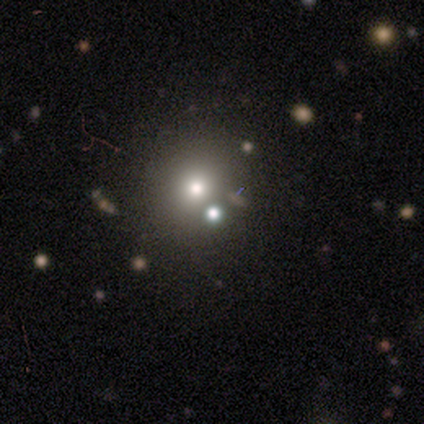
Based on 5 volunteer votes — smooth_or_featured: smooth (p=0.80) [alt: star or artifact p=0.20]
how_rounded: round (p=1.00)
merging: none (p=0.50) [tied with: merger p=0.50]